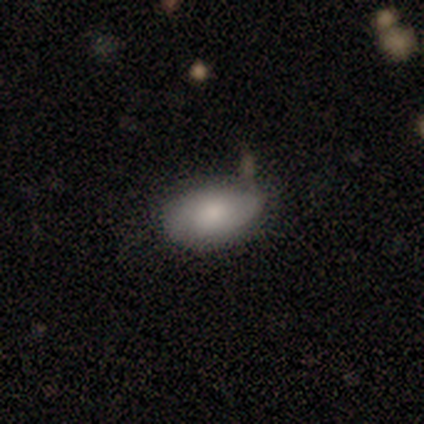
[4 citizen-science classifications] A smooth galaxy with no disk features (100%) that is in between round and cigar-shaped (100%). Merging: none (75%).